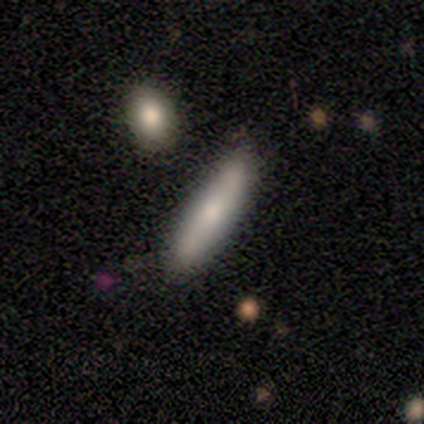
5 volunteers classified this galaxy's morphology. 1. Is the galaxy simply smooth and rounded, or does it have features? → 80% smooth, 20% featured or disk, 0% star or artifact.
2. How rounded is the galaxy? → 75% cigar-shaped, 25% in between, 0% round.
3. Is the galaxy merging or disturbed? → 80% none, 20% merger, 0% minor disturbance, 0% major disturbance.